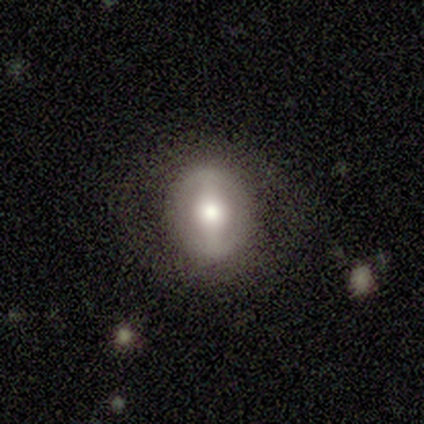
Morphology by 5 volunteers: A featured or disk galaxy (80%) with a strong bar (75%), 2 (100%) loose (100%) spiral arms (50%, tied with no) and a large central bulge (75%). Merging: none (100%).